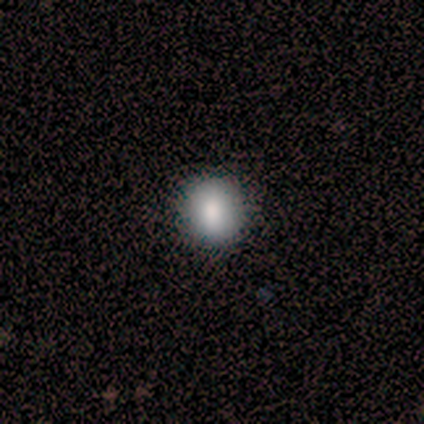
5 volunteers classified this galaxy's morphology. Smooth or featured? smooth (80%)
How rounded? round (100%)
Merging? none (100%)